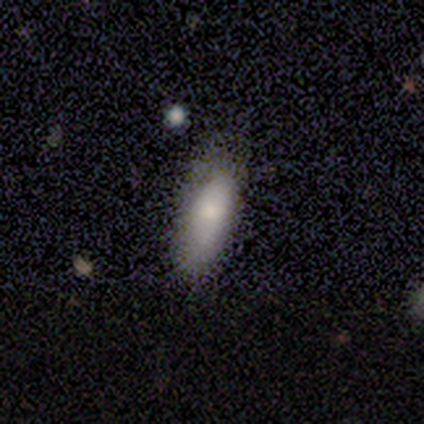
Volunteers were most divided on "how rounded": cigar-shaped: 60%, in between: 40%, round: 0%. More confident: smooth or featured — smooth (100%); merging — none (80%).